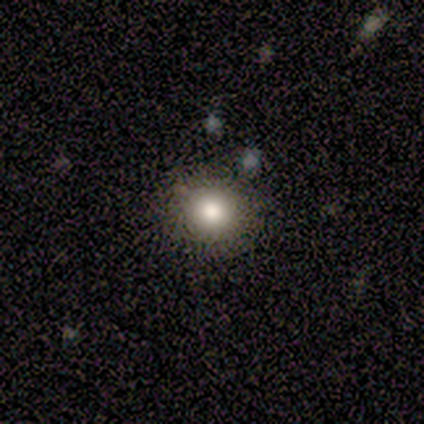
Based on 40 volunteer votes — A smooth galaxy with no disk features (70%) that is round (96%).

Vote fractions:
- Smooth or featured? smooth: 70% / star or artifact: 25% / featured or disk: 5%
- How rounded? round: 96% / in between: 4% / cigar-shaped: 0%
- Merging? none: 83% / minor disturbance: 13% / merger: 3% / major disturbance: 0%